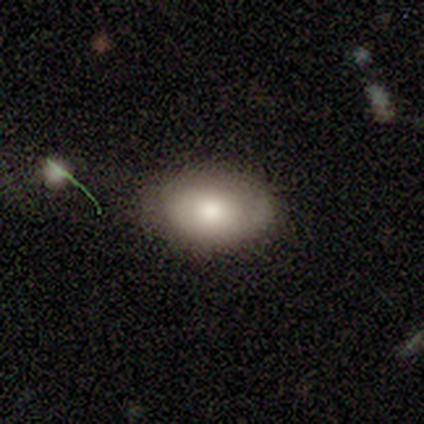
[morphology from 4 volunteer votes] Overall: smooth (75%). How rounded: in between (100%). Merging: none (100%).